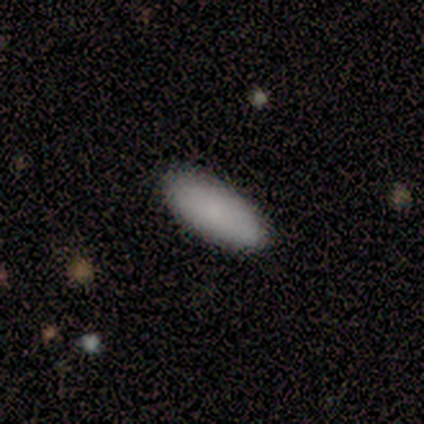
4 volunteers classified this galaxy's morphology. smooth 100%, featured or disk 0%, star or artifact 0%. Down the decision tree: how rounded — in between (100%); merging — none (100%).